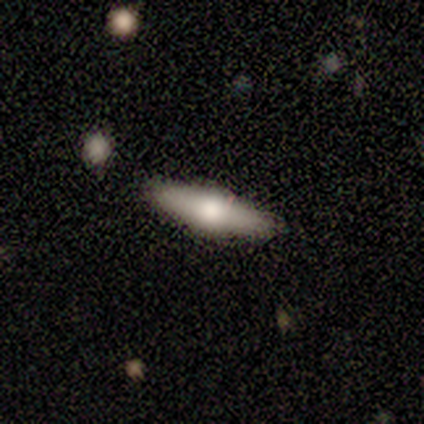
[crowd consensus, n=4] This appears to be a smooth galaxy with no disk features (75%) that is cigar-shaped (67%). Merging: none (50%, tied with minor disturbance).